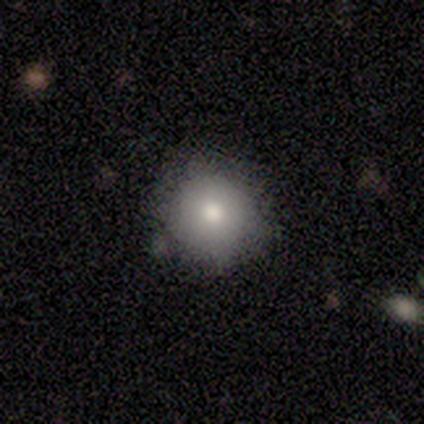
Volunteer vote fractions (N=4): Volunteers were most divided on "smooth or featured": smooth: 75%, featured or disk: 25%, star or artifact: 0%. More confident: how rounded — round (100%); merging — none (100%).